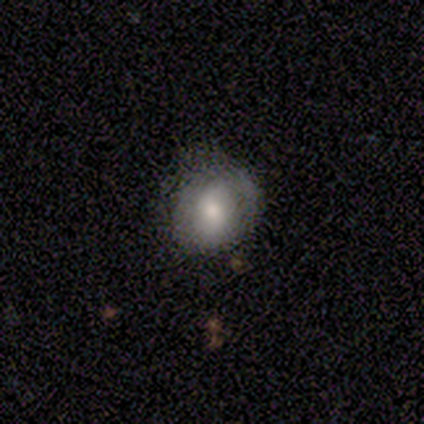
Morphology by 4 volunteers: Smooth or featured? smooth (75%)
How rounded? round (100%)
Merging? none (100%)